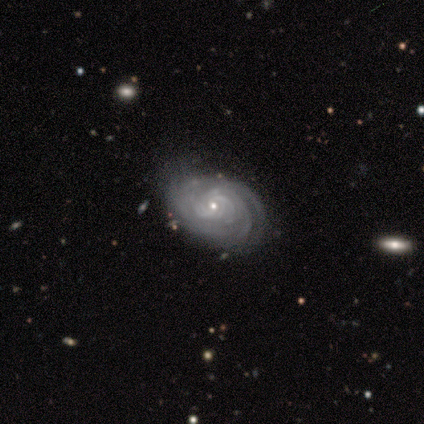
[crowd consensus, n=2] This appears to be a featured or disk galaxy (100%) with a strong bar (50%, tied with weak), 3 (50%, tied with more than 4) tight (100%) spiral arms (100%) and a moderate central bulge (50%, tied with small). Merging: none (50%, tied with minor disturbance).